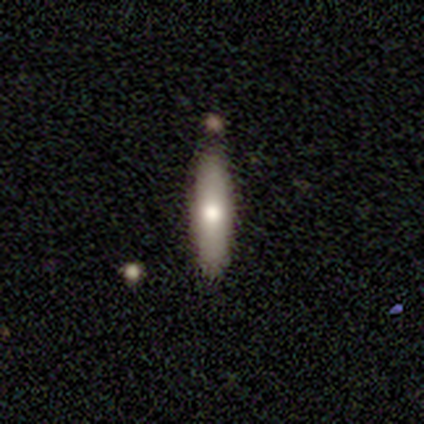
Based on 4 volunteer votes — Consensus on every question: smooth or featured — smooth (100%); how rounded — cigar-shaped (100%); merging — none (100%).